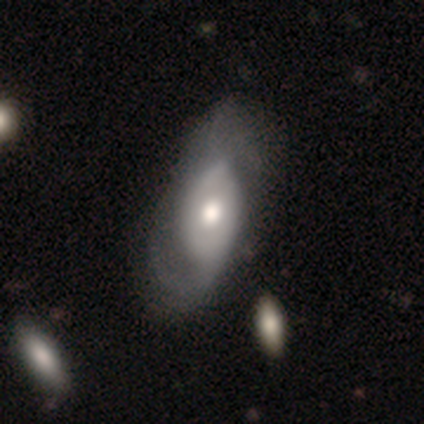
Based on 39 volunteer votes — Q: Smooth or featured?
A: featured or disk (59%); runner-up: smooth (38%)
Q: Edge-on disk?
A: no (100%)
Q: Bar?
A: no (61%); runner-up: strong (22%)
Q: Spiral arms?
A: yes (74%); runner-up: no (26%)
Q: Spiral winding?
A: loose (59%); runner-up: medium (41%)
Q: Spiral arm count?
A: 2 (82%); runner-up: 1 (12%)
Q: Bulge size?
A: moderate (52%); runner-up: large (26%)
Q: Merging?
A: none (32%); runner-up: major disturbance (24%)